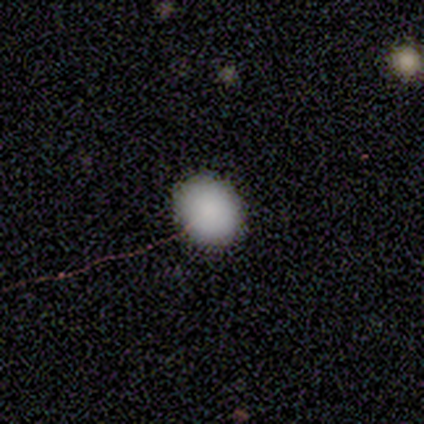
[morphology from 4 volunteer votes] Smooth or featured? 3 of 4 (75%) said smooth. How rounded? 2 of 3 (67%) said in between. Merging? 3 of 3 (100%) said none.